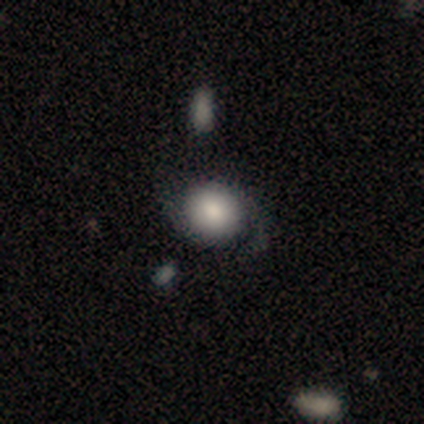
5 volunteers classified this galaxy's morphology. smooth_or_featured: smooth (p=0.60) [alt: featured or disk p=0.20]
how_rounded: round (p=0.67) [alt: in between p=0.33]
merging: none (p=0.50) [tied with: minor disturbance p=0.50]